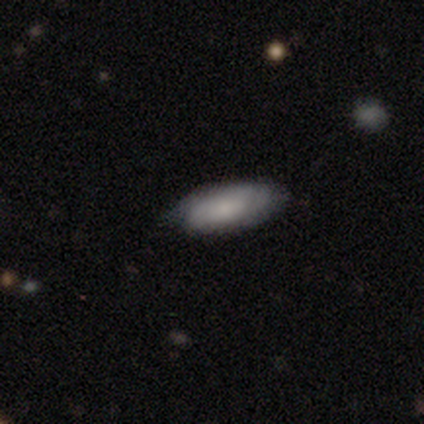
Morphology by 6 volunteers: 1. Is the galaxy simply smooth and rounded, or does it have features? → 67% smooth, 17% featured or disk, 17% star or artifact.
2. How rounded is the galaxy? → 75% in between, 25% cigar-shaped, 0% round.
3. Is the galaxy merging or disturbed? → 100% none, 0% minor disturbance, 0% major disturbance, 0% merger.